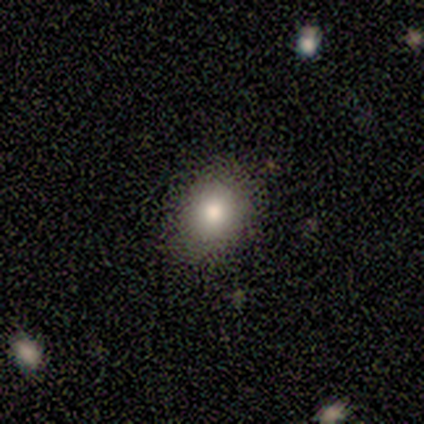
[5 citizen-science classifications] Smooth or featured? 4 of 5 (80%) said smooth. How rounded? 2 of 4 (50%, tied with in between) said round. Merging? 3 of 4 (75%) said none.